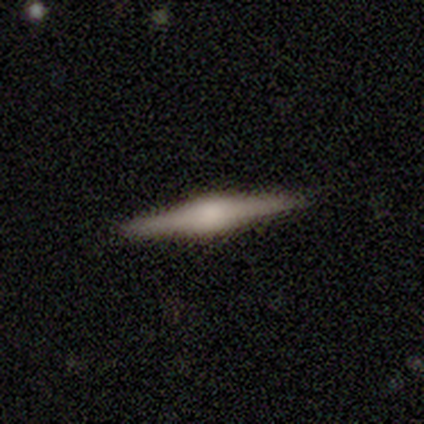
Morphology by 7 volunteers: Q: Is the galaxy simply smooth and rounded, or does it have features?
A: featured or disk — 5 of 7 (71%).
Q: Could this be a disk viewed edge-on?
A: yes — 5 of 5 (100%).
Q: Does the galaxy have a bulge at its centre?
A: rounded — 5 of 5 (100%).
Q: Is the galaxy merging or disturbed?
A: none — 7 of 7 (100%).